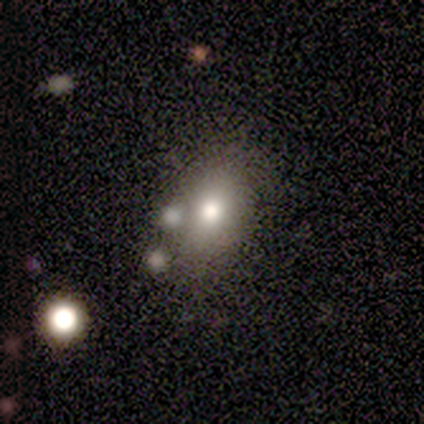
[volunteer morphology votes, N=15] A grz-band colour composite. It shows a smooth galaxy with no disk features (53%) that is in between round and cigar-shaped (75%). Merging: none (69%).